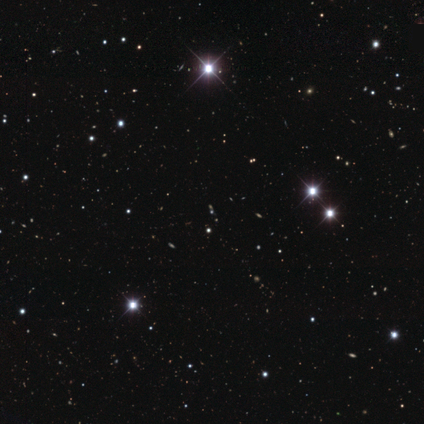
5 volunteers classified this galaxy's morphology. Smooth or featured? star or artifact (80%)